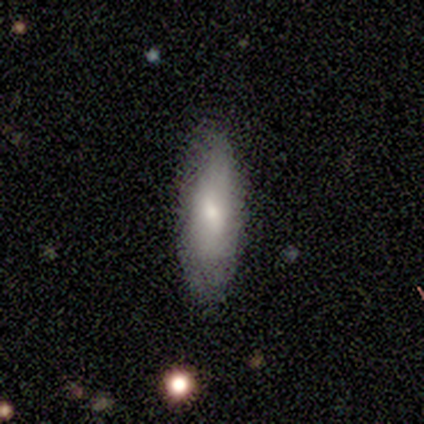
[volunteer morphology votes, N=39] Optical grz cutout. It shows a smooth galaxy with no disk features (64%) that is cigar-shaped (52%). Merging: none (81%).